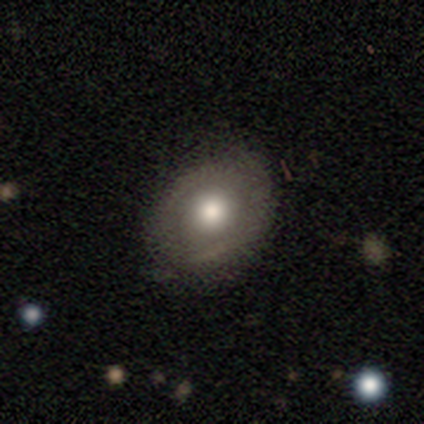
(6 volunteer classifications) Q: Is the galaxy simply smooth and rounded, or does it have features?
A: smooth — 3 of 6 (50%, tied with featured or disk).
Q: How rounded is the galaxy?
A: round — 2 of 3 (67%).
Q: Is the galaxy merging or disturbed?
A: none — 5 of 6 (83%).